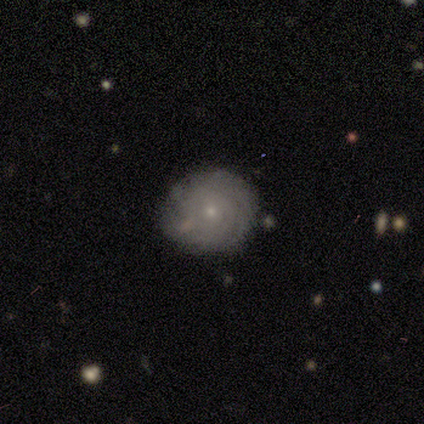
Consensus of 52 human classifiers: Overall: featured or disk (58%; smooth 35%). Edge-on disk: no (97%). Bar: no (93%). Spiral arms: yes (86%). Spiral arm count: can't tell (76%). Spiral winding: tight (96%). Bulge size: small (93%). Merging: none (71%).